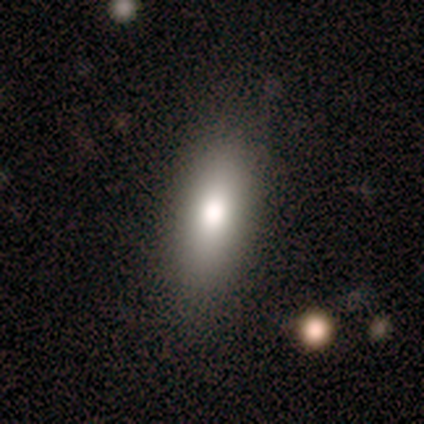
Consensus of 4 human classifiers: smooth 75%, star or artifact 25%, featured or disk 0%. Down the decision tree: how rounded — in between (67%); merging — none (100%).